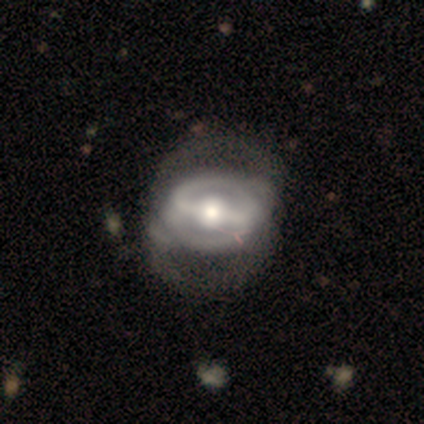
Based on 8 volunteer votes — smooth_or_featured: featured or disk (p=0.88) [alt: smooth p=0.12]
disk_edge_on: no (p=0.86) [alt: yes p=0.14]
bar: strong (p=0.83) [alt: weak p=0.17]
has_spiral_arms: yes (p=0.50) [tied with: no p=0.50]
spiral_winding: tight (p=0.33) [tied with: medium p=0.33, loose p=0.33]
spiral_arm_count: 2 (p=1.00)
bulge_size: moderate (p=0.83) [alt: small p=0.17]
merging: none (p=0.38) [alt: minor disturbance p=0.25]